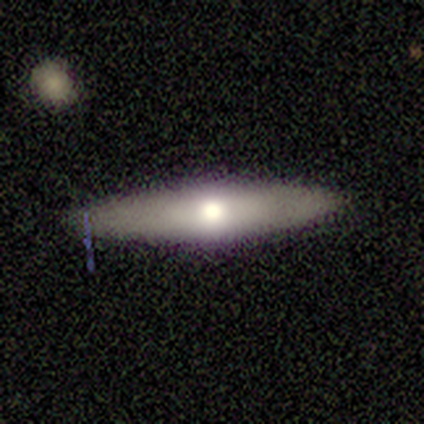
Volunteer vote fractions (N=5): Smooth or featured? smooth (60%)
How rounded? cigar-shaped (67%)
Merging? none (100%)